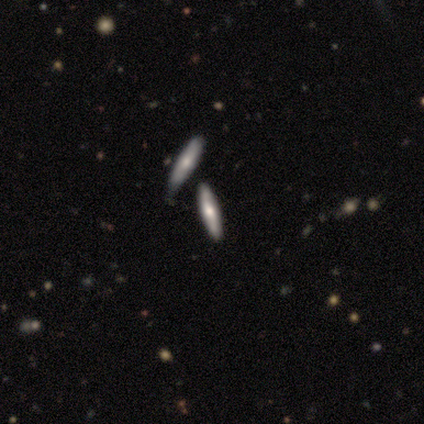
Q: Smooth or featured?
A: smooth (80%); runner-up: featured or disk (20%)
Q: How rounded?
A: cigar-shaped (100%)
Q: Merging?
A: none (100%)